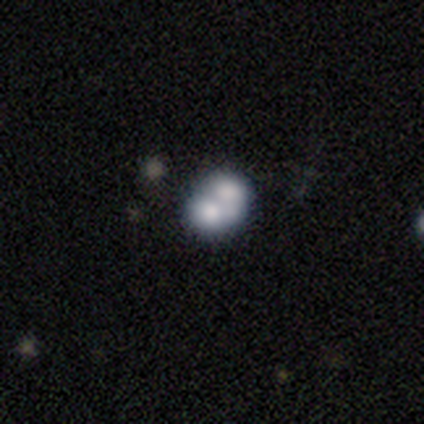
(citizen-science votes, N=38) This is marginally a smooth galaxy (45%, tied with featured or disk). How rounded: possibly in between (53%). Merging: likely merger (71%).